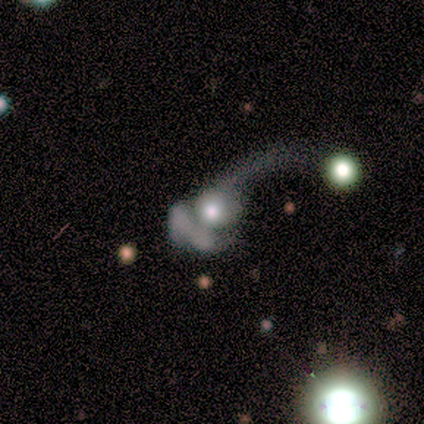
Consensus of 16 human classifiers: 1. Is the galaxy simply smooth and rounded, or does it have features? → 81% featured or disk, 19% smooth, 0% star or artifact.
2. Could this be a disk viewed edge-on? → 100% no, 0% yes.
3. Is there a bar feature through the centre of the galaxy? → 85% no, 8% strong, 8% weak.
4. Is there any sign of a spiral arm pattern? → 62% no, 38% yes.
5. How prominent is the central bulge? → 69% moderate, 23% large, 8% none, 0% dominant, 0% small.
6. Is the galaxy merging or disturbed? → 50% major disturbance, 31% merger, 19% none, 0% minor disturbance.